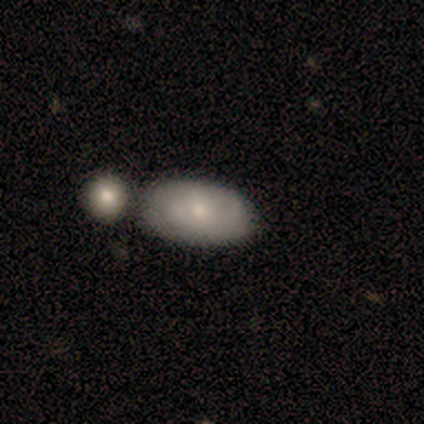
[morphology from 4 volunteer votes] Smooth or featured?
  - smooth: 50% * (tied)
  - featured or disk: 50% * (tied)
  - star or artifact: 0%
How rounded?
  - round: 50% * (tied)
  - in between: 50% * (tied)
  - cigar-shaped: 0%
Merging?
  - none: 75% *
  - merger: 25%
  - minor disturbance: 0%
  - major disturbance: 0%